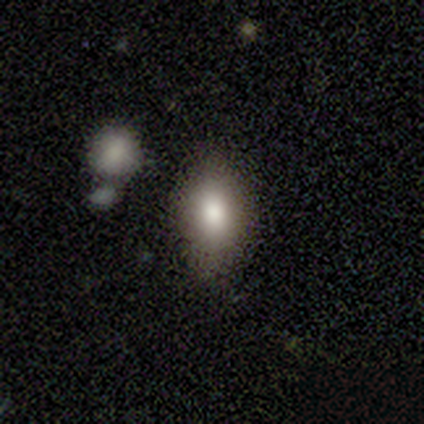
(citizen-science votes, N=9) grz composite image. It shows a smooth galaxy with no disk features (100%) that is in between round and cigar-shaped (100%). Merging: none (78%).